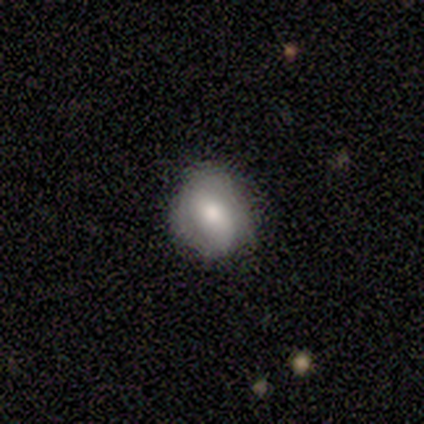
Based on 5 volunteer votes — Overall: smooth (60%; featured or disk 40%). How rounded: round (67%; in between 33%). Merging: none (100%).